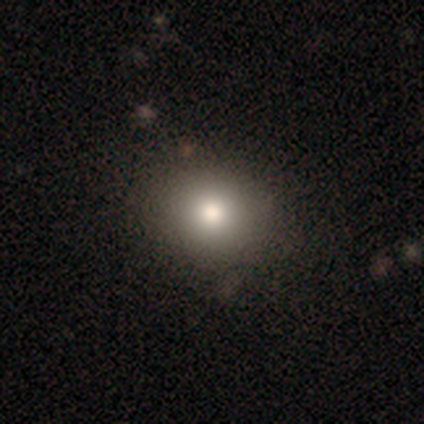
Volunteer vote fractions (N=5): Volunteers were most divided on "how rounded": round: 80%, in between: 20%, cigar-shaped: 0%. More confident: smooth or featured — smooth (100%); merging — none (100%).